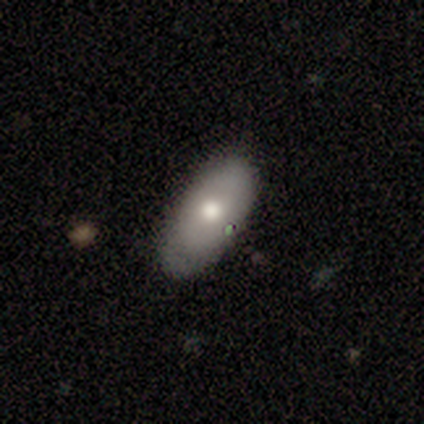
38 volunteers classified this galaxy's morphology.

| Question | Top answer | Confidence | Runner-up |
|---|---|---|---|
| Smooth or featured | smooth | 79% | featured or disk (18%) |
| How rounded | in between | 93% | round (7%) |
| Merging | none | 84% | minor disturbance (16%) |